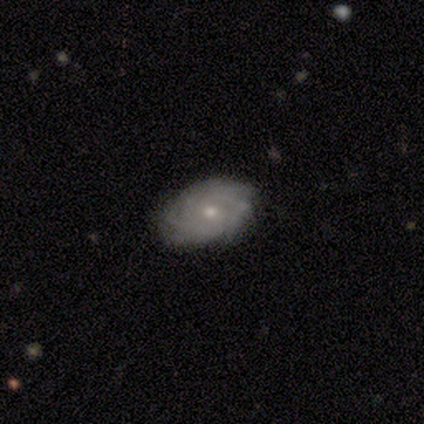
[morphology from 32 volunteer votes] A featured or disk galaxy (75%) with no bar (78%), tight (78%) spiral arms (100%) and a moderate central bulge (52%).

Vote fractions:
- Smooth or featured? featured or disk: 75% / smooth: 16% / star or artifact: 9%
- Edge-on disk? no: 96% / yes: 4%
- Bar? no: 78% / weak: 22% / strong: 0%
- Spiral arms? yes: 100% / no: 0%
- Spiral winding? tight: 78% / medium: 17% / loose: 4%
- Spiral arm count? can't tell: 39% / more than 4: 22% / 3: 17% / 4: 13% / 2: 9% / 1: 0%
- Bulge size? moderate: 52% / small: 48% / dominant: 0% / large: 0% / none: 0%
- Merging? none: 86% / minor disturbance: 7% / major disturbance: 3% / merger: 3%